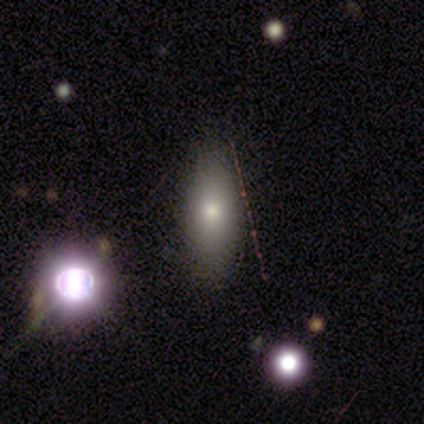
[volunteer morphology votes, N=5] Smooth or featured? 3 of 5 (60%) said smooth. How rounded? 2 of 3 (67%) said cigar-shaped. Merging? 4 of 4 (100%) said none.